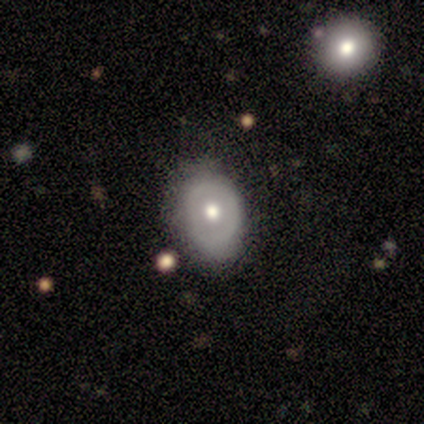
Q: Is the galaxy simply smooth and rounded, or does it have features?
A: smooth — 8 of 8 (100%).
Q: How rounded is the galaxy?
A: in between — 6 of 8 (75%).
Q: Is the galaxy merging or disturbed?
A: minor disturbance — 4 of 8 (50%).